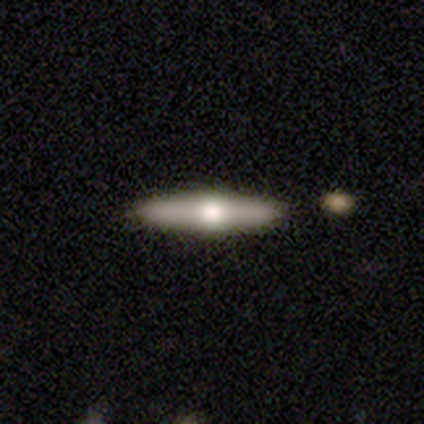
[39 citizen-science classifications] Smooth or featured? 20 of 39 (51%) said smooth. How rounded? 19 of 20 (95%) said cigar-shaped. Merging? 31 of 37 (84%) said none.